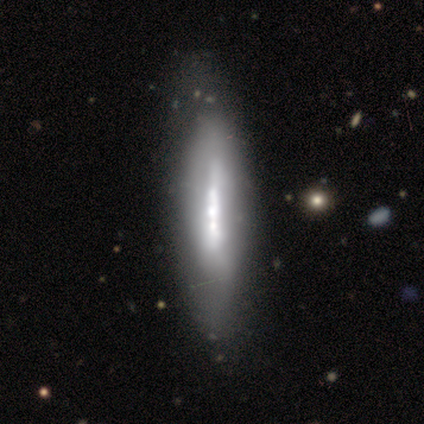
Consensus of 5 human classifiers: This appears to be a smooth galaxy with no disk features (60%) that is cigar-shaped (67%). Merging: none (80%).